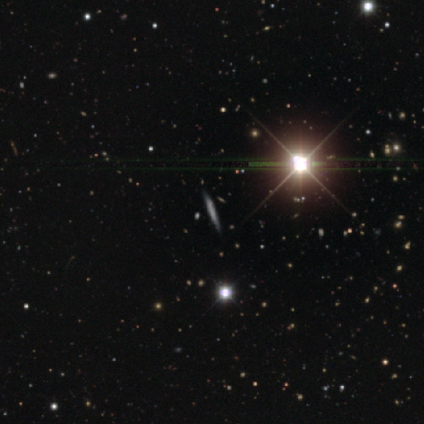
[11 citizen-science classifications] smooth_or_featured: smooth (p=0.36) [tied with: star or artifact p=0.36]
how_rounded: cigar-shaped (p=1.00)
merging: none (p=1.00)